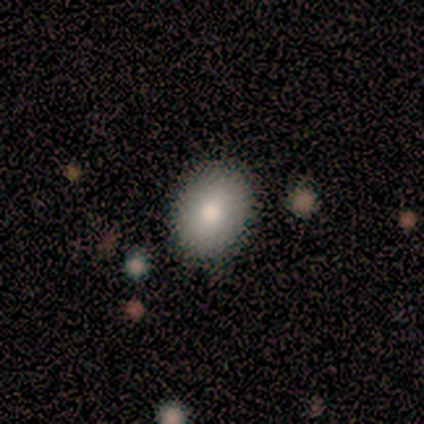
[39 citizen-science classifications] Morphology: type=smooth (85%); roundness=round (52%); merging=none (86%).